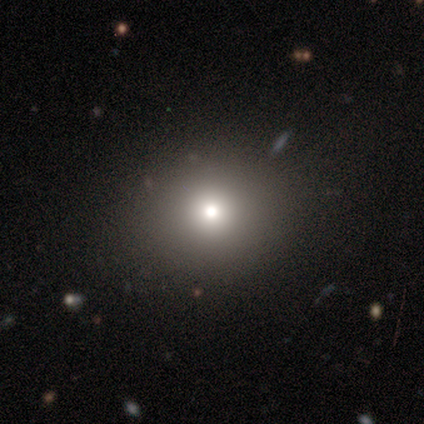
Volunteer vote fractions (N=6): Smooth or featured? smooth (67%)
How rounded? round (75%)
Merging? none (100%)